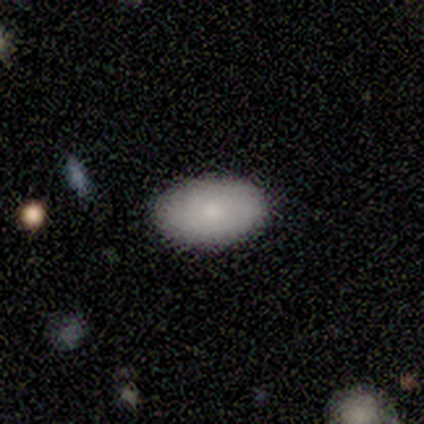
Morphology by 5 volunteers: A smooth galaxy with no disk features (80%) that is in between round and cigar-shaped (100%).

Vote fractions:
- Smooth or featured? smooth: 80% / featured or disk: 20% / star or artifact: 0%
- How rounded? in between: 100% / round: 0% / cigar-shaped: 0%
- Merging? none: 100% / minor disturbance: 0% / major disturbance: 0% / merger: 0%